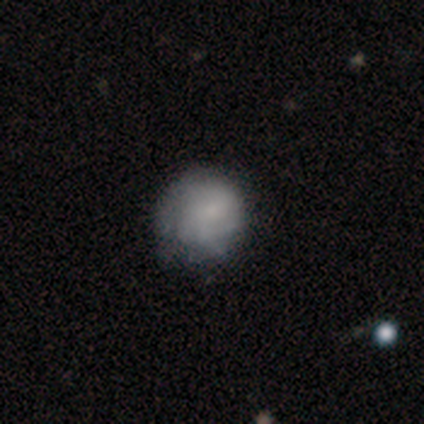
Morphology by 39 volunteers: Smooth or featured: smooth — 51% (featured or disk — 41%)
How rounded: round — 70% (in between — 30%)
Merging: none — 50% (minor disturbance — 22%)